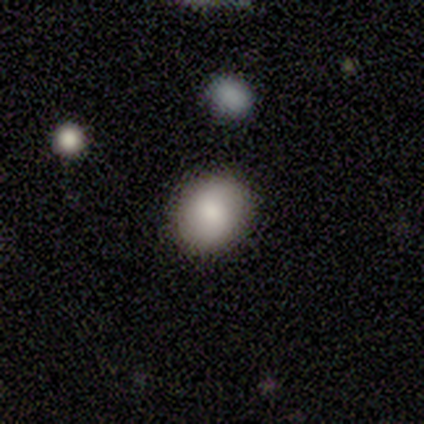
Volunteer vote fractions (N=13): Volunteers were most divided on "smooth or featured": smooth: 85%, featured or disk: 8%, star or artifact: 8%. More confident: merging — none (100%); how rounded — round (91%).